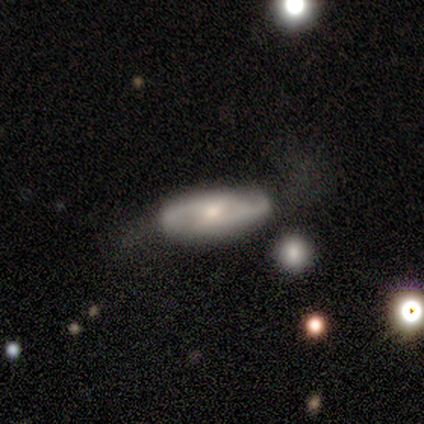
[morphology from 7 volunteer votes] Smooth or featured? 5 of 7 (71%) said featured or disk. Edge-on disk? 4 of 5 (80%) said no. Bar? 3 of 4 (75%) said no. Spiral arms? 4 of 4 (100%) said yes. Spiral winding? 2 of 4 (50%) said tight. Spiral arm count? 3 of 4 (75%) said 2. Bulge size? 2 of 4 (50%, tied with small) said moderate. Merging? 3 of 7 (43%) said none.